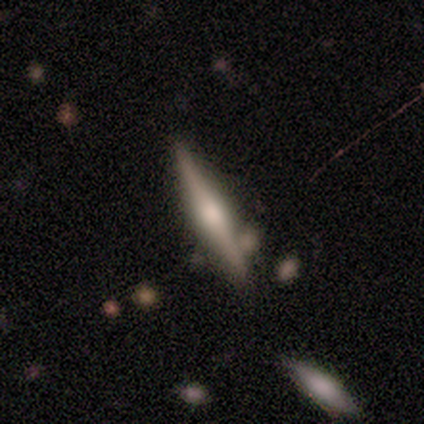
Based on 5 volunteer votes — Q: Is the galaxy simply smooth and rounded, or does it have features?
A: featured or disk — 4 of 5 (80%).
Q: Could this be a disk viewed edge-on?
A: yes — 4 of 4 (100%).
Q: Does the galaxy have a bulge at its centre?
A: rounded — 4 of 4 (100%).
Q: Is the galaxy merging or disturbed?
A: none — 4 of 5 (80%).